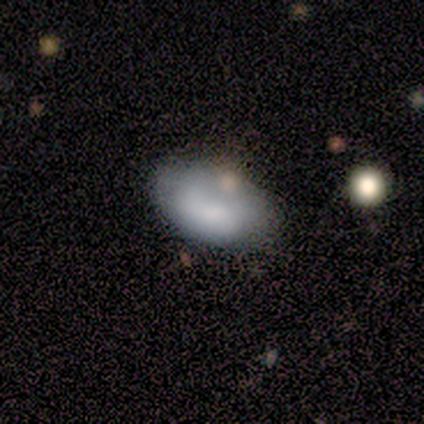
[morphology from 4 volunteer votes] smooth 100%, featured or disk 0%, star or artifact 0%. Down the decision tree: how rounded — in between (100%); merging — minor disturbance (50%).